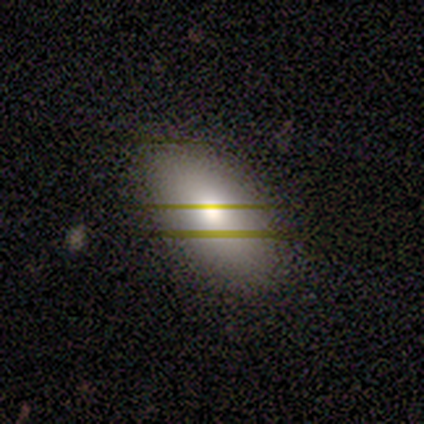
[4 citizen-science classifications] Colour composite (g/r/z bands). It shows a smooth galaxy with no disk features (50%, tied with star or artifact) that is in between round and cigar-shaped (100%). Merging: none (50%, tied with minor disturbance).